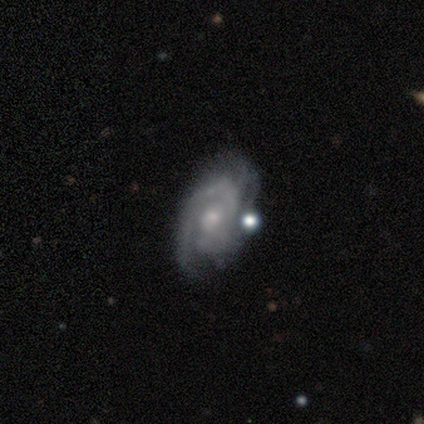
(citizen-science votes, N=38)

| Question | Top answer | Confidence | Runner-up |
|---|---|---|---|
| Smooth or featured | featured or disk | 82% | smooth (11%) |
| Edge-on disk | no | 90% | yes (10%) |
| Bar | no | 61% | weak (32%) |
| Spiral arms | yes | 89% | no (11%) |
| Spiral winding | tight | 64% | medium (36%) |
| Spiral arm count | can't tell | 44% | 2 (40%) |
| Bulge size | small | 64% | moderate (29%) |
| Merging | none | 46% | minor disturbance (29%) |